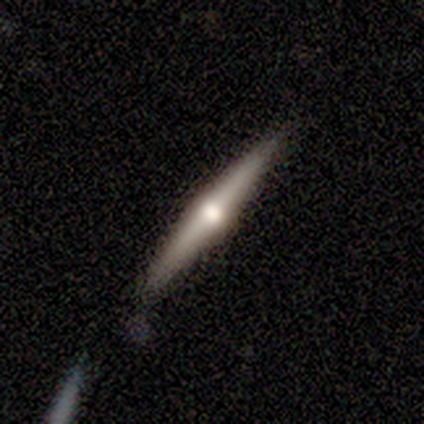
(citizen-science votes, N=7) Smooth or featured?
  - featured or disk: 86% *
  - smooth: 14%
  - star or artifact: 0%
Edge-on disk?
  - yes: 100% *
  - no: 0%
Edge-on bulge?
  - rounded: 100% *
  - boxy: 0%
  - none: 0%
Merging?
  - none: 100% *
  - minor disturbance: 0%
  - major disturbance: 0%
  - merger: 0%